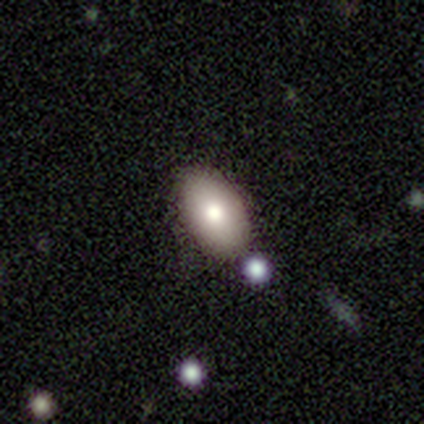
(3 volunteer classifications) Consensus on every question: smooth or featured — smooth (100%); how rounded — in between (100%); merging — none (100%).